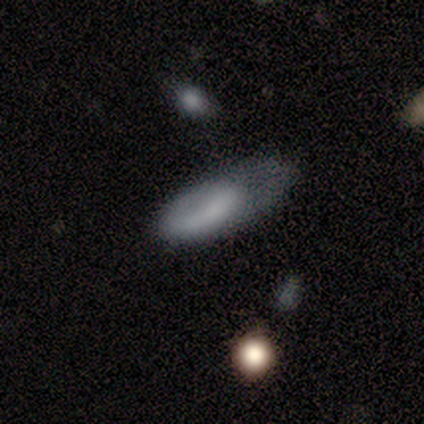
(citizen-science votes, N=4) Smooth or featured? 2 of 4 (50%, tied with featured or disk) said smooth. How rounded? 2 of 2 (100%) said in between. Merging? 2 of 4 (50%) said minor disturbance.